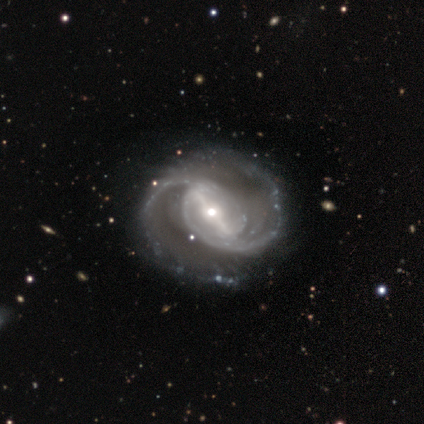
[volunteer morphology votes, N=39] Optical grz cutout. It shows a featured or disk galaxy (97%) with a strong bar (84%), 2 (86%) medium (51%) spiral arms (100%) and a moderate central bulge (57%). Merging: none (38%).